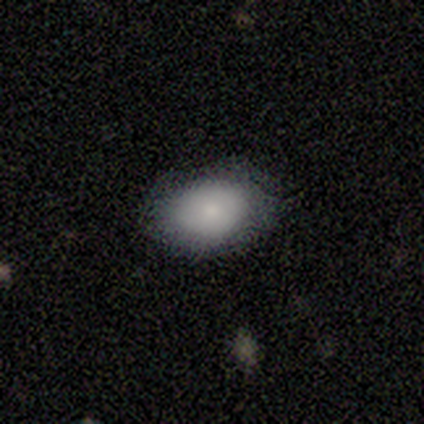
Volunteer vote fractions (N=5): This is clearly a smooth galaxy (100%). How rounded: clearly in between (80%). Merging: likely none (60%).